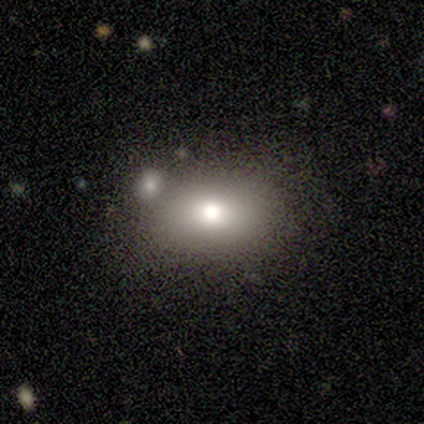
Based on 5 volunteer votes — This appears to be a smooth galaxy with no disk features (80%) that is in between round and cigar-shaped (100%). Merging: none (100%).